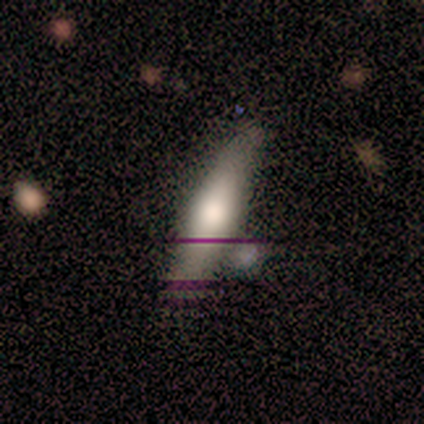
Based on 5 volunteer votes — smooth 40% (tied), featured or disk 40% (tied), star or artifact 20%. Down the decision tree: how rounded — cigar-shaped (100%); merging — none (75%).